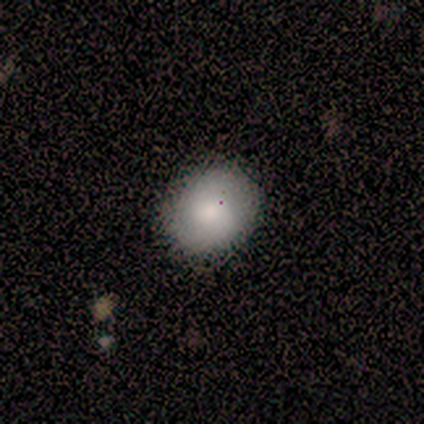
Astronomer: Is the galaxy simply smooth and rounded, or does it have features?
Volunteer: smooth — 100%.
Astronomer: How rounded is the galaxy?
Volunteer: round — 60%.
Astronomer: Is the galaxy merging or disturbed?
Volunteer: none — 100%.